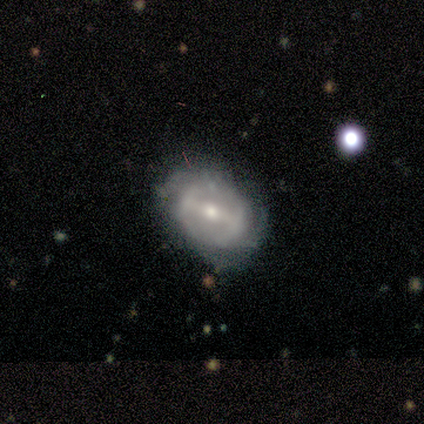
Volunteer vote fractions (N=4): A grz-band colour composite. It shows a featured or disk galaxy (100%) with a strong bar (50%, tied with weak), no spiral arms (75%) and a moderate central bulge (75%). Merging: none (75%).